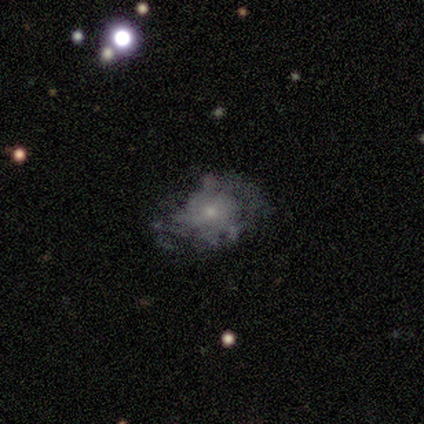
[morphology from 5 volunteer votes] Smooth or featured? featured or disk (60%)
Edge-on disk? no (100%)
Bar? no (100%)
Spiral arms? no (67%)
Bulge size? small (100%)
Merging? minor disturbance (75%)